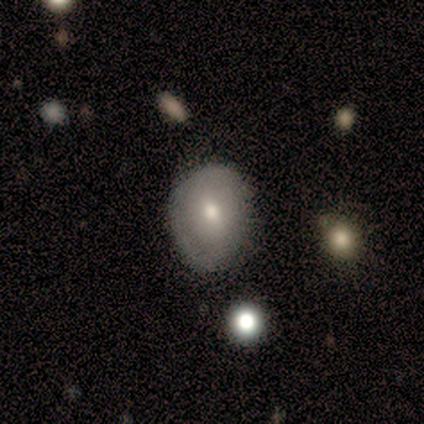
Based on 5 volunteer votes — Overall: smooth (100%). How rounded: in between (60%; round 40%). Merging: none (100%).